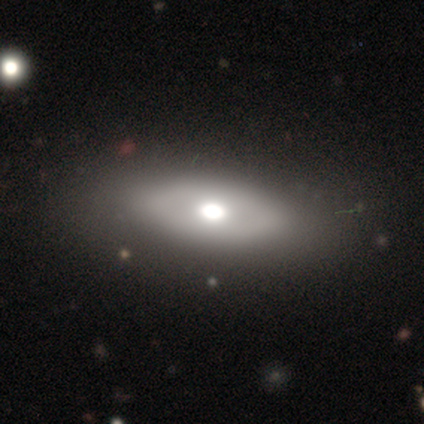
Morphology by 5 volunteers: This is marginally a smooth galaxy (40%, tied with featured or disk). How rounded: possibly in between (50%, tied with cigar-shaped). Merging: possibly none (50%, tied with major disturbance).